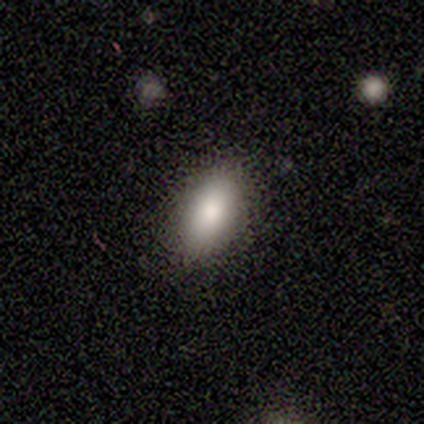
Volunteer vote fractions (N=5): Smooth or featured?
  - smooth: 100% *
  - featured or disk: 0%
  - star or artifact: 0%
How rounded?
  - in between: 100% *
  - round: 0%
  - cigar-shaped: 0%
Merging?
  - none: 80% *
  - minor disturbance: 20%
  - major disturbance: 0%
  - merger: 0%